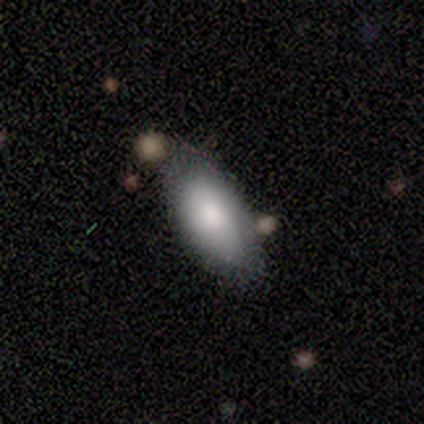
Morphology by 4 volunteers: A smooth galaxy with no disk features (75%) that is in between round and cigar-shaped (100%).

Vote fractions:
- Smooth or featured? smooth: 75% / star or artifact: 25% / featured or disk: 0%
- How rounded? in between: 100% / round: 0% / cigar-shaped: 0%
- Merging? none: 67% / merger: 33% / minor disturbance: 0% / major disturbance: 0%